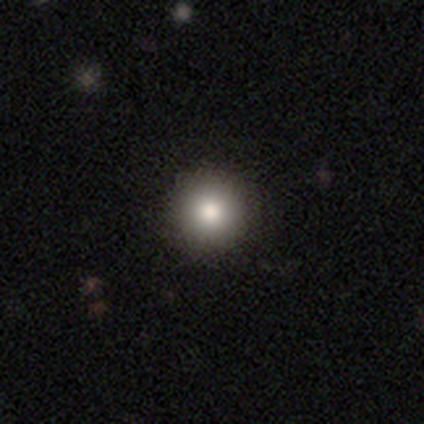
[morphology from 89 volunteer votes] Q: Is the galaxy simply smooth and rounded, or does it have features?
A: smooth — 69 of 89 (78%).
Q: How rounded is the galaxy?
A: round — 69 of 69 (100%).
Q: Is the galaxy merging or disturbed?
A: none — 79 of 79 (100%).